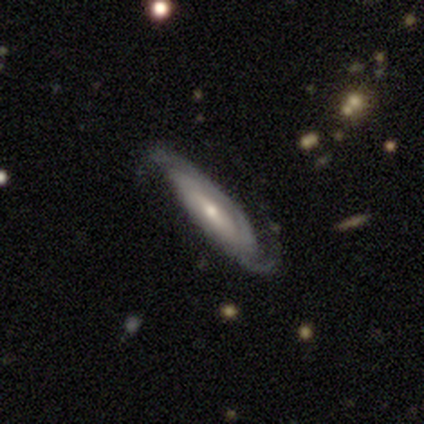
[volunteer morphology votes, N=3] Overall: featured or disk (67%; smooth 33%). Edge-on disk: no (100%). Bar: weak (50%, tied with no). Spiral arms: yes (100%). Spiral arm count: can't tell (100%). Spiral winding: medium (100%). Bulge size: moderate (50%, tied with small). Merging: none (33%, tied with minor disturbance and major disturbance).